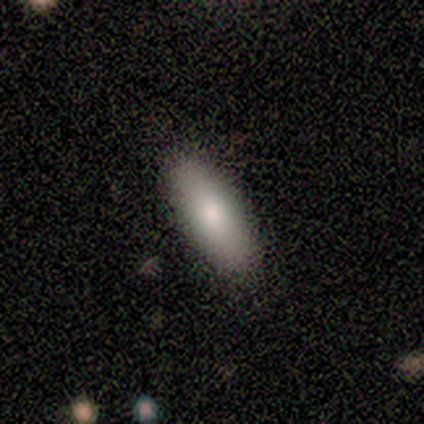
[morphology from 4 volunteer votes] smooth-or-featured: featured or disk: 50% | smooth: 25% | star or artifact: 25%
  disk-edge-on: no: 100% | yes: 0%
    bar: no: 100% | strong: 0% | weak: 0%
    has-spiral-arms: no: 100% | yes: 0%
    bulge-size: moderate: 100% | dominant: 0% | large: 0% | small: 0% | none: 0%
  merging: none: 100% | minor disturbance: 0% | major disturbance: 0% | merger: 0%